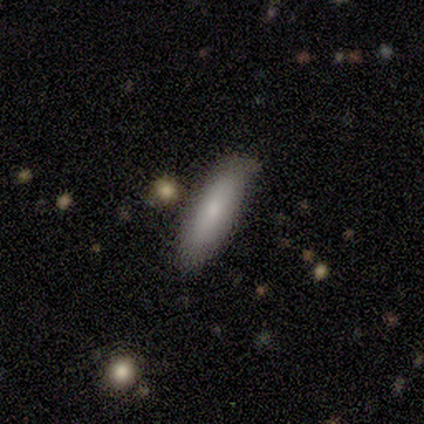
Smooth or featured? 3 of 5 (60%) said featured or disk. Edge-on disk? 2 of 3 (67%) said no. Bar? 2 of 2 (100%) said no. Spiral arms? 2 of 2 (100%) said no. Bulge size? 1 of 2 (50%, tied with small) said moderate. Merging? 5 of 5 (100%) said none.